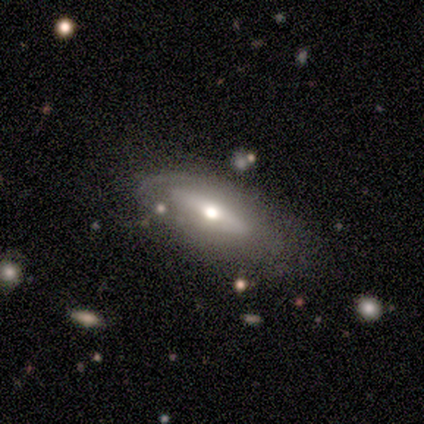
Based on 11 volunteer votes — Smooth or featured? 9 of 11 (82%) said featured or disk. Edge-on disk? 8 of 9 (89%) said no. Bar? 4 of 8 (50%) said weak. Spiral arms? 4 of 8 (50%, tied with no) said yes. Spiral winding? 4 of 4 (100%) said medium. Spiral arm count? 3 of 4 (75%) said 2. Bulge size? 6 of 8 (75%) said moderate. Merging? 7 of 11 (64%) said none.